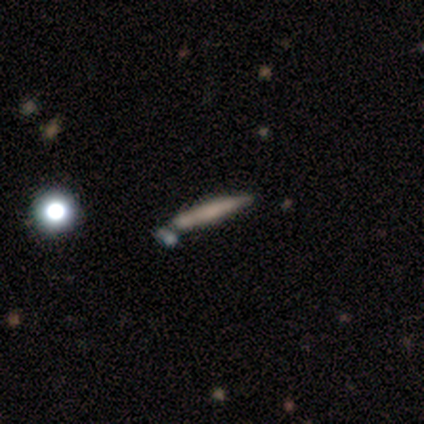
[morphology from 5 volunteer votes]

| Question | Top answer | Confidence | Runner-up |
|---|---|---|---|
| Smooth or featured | featured or disk | 60% | smooth (20%) |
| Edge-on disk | yes | 67% | no (33%) |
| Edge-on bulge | boxy | 50% | tied: rounded (50%) |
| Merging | minor disturbance | 75% | none (25%) |